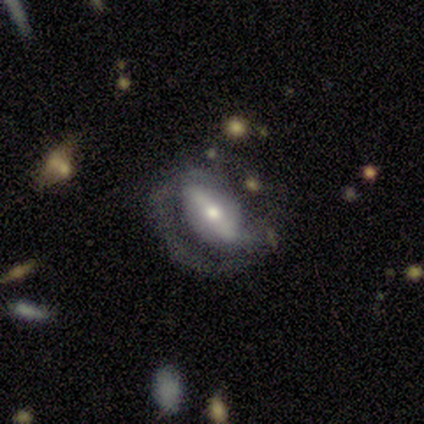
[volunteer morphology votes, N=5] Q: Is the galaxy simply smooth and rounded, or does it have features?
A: featured or disk — 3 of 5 (60%).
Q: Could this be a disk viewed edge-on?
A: no — 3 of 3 (100%).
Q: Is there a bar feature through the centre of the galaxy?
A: weak — 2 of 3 (67%).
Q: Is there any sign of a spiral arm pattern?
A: no — 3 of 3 (100%).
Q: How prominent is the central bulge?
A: moderate — 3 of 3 (100%).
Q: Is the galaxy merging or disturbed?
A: major disturbance — 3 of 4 (75%).